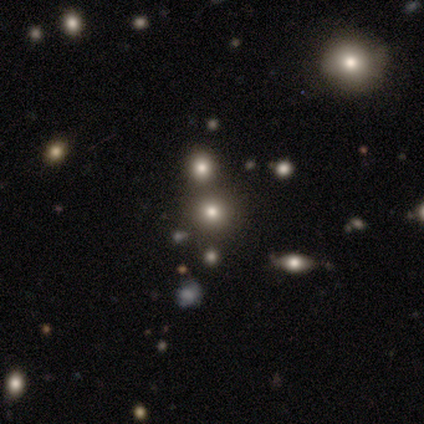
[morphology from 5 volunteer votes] This is likely a star or artifact rather than a galaxy (60%).